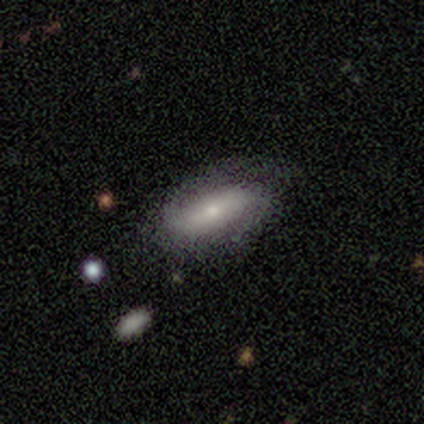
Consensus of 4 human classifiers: Smooth or featured?
  - featured or disk: 75% *
  - star or artifact: 25%
  - smooth: 0%
Edge-on disk?
  - no: 100% *
  - yes: 0%
Bar?
  - strong: 67% *
  - weak: 33%
  - no: 0%
Spiral arms?
  - yes: 67% *
  - no: 33%
Spiral winding?
  - loose: 100% *
  - tight: 0%
  - medium: 0%
Spiral arm count?
  - 2: 100% *
  - 1: 0%
  - 3: 0%
  - 4: 0%
  - more than 4: 0%
  - can't tell: 0%
Bulge size?
  - small: 67% *
  - moderate: 33%
  - dominant: 0%
  - large: 0%
  - none: 0%
Merging?
  - none: 67% *
  - minor disturbance: 33%
  - major disturbance: 0%
  - merger: 0%